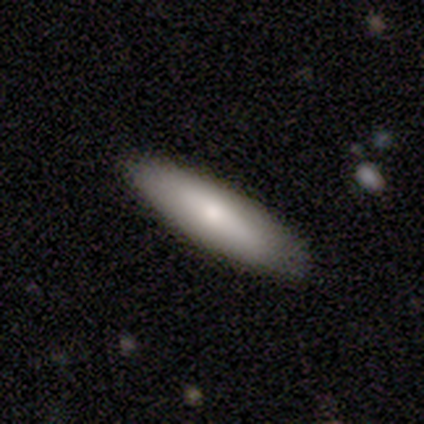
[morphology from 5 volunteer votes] smooth 60%, featured or disk 40%, star or artifact 0%. Down the decision tree: how rounded — in between (100%); merging — minor disturbance (60%).